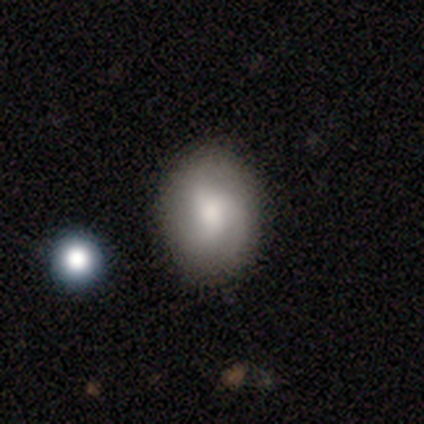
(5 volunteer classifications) smooth_or_featured: featured or disk (p=0.60) [alt: smooth p=0.40]
disk_edge_on: no (p=1.00)
bar: no (p=1.00)
has_spiral_arms: yes (p=1.00)
spiral_winding: tight (p=0.33) [tied with: medium p=0.33, loose p=0.33]
spiral_arm_count: 3 (p=1.00)
bulge_size: none (p=0.67) [alt: moderate p=0.33]
merging: none (p=1.00)